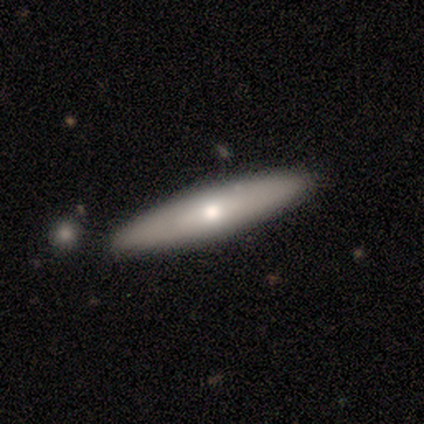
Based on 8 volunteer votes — smooth-or-featured: smooth: 38% (tied) | star or artifact: 38% (tied) | featured or disk: 25%
  how-rounded: in between: 67% | cigar-shaped: 33% | round: 0%
  merging: none: 80% | minor disturbance: 20% | major disturbance: 0% | merger: 0%